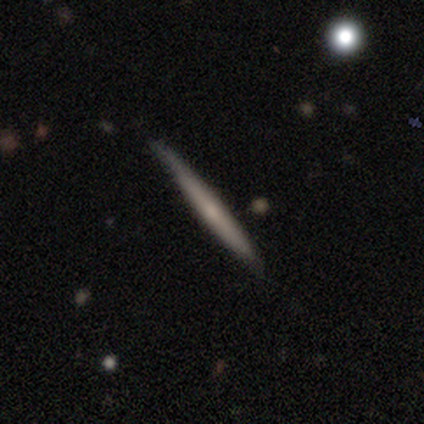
Volunteers were most divided on "smooth or featured": smooth: 54%, featured or disk: 38%, star or artifact: 8%. More confident: how rounded — cigar-shaped (100%); merging — none (83%).